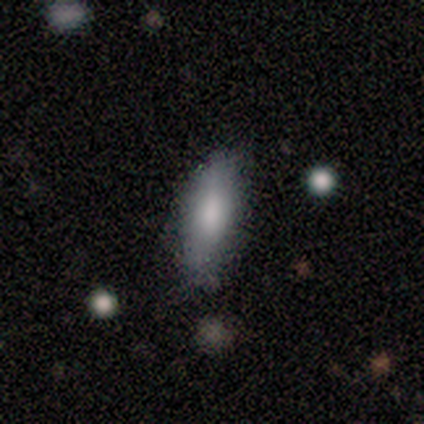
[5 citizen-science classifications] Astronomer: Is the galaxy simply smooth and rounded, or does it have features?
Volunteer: smooth — 80%.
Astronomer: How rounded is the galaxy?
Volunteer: in between — 50%, tied with cigar-shaped at 50%.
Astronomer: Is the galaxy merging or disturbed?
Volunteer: none — 75%.